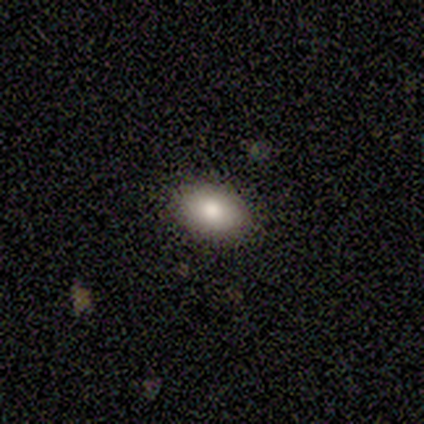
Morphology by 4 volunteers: smooth-or-featured: smooth: 50% (tied) | star or artifact: 50% (tied) | featured or disk: 0%
  how-rounded: in between: 100% | round: 0% | cigar-shaped: 0%
  merging: none: 100% | minor disturbance: 0% | major disturbance: 0% | merger: 0%